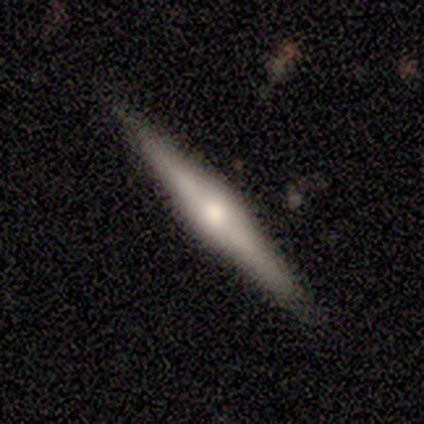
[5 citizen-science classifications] This appears to be a featured or disk galaxy (80%) viewed edge-on (100%) with a rounded central bulge (75%). Merging: none (100%).